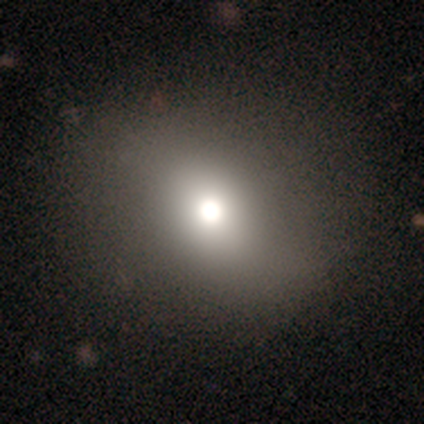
smooth_or_featured: smooth (p=0.67) [alt: star or artifact p=0.18]
how_rounded: round (p=0.69) [alt: in between p=0.31]
merging: none (p=0.69) [alt: major disturbance p=0.09]